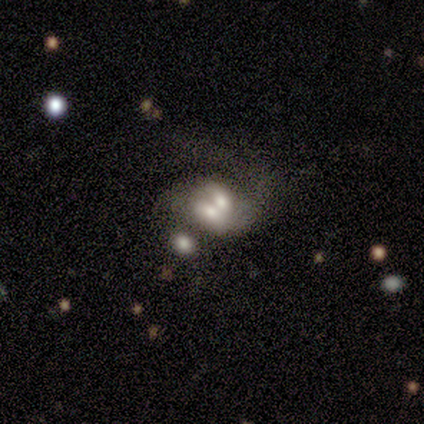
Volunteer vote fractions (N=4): This is possibly a smooth galaxy (50%, tied with featured or disk). How rounded: clearly in between (100%). Merging: likely merger (75%).